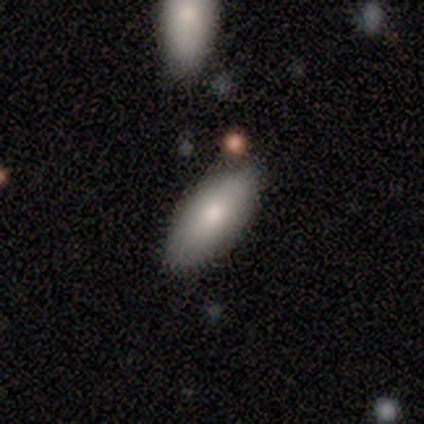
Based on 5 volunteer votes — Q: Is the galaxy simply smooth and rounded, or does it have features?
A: smooth — 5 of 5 (100%).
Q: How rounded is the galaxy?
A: in between — 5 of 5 (100%).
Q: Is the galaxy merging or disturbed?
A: none — 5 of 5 (100%).